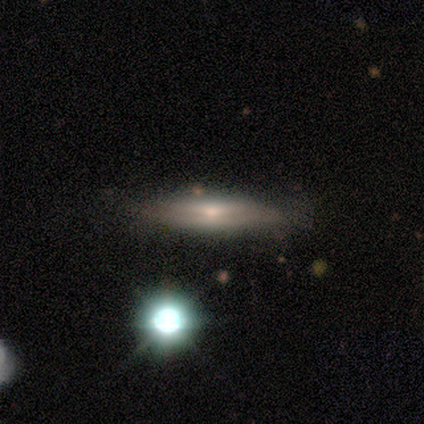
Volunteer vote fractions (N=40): smooth-or-featured: featured or disk: 62% | smooth: 32% | star or artifact: 5%
  disk-edge-on: yes: 84% | no: 16%
    edge-on-bulge: rounded: 48% | none: 38% | boxy: 14%
  merging: none: 76% | minor disturbance: 16% | major disturbance: 5% | merger: 3%